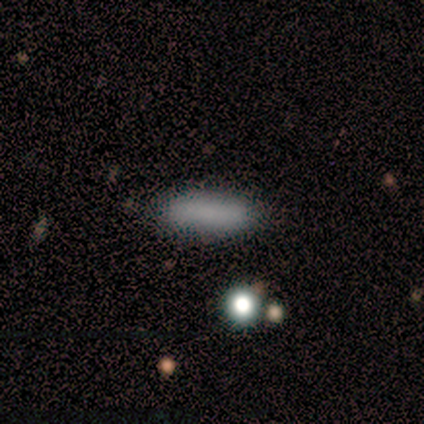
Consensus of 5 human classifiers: Smooth or featured?
  - smooth: 60% *
  - featured or disk: 40%
  - star or artifact: 0%
How rounded?
  - in between: 67% *
  - cigar-shaped: 33%
  - round: 0%
Merging?
  - none: 100% *
  - minor disturbance: 0%
  - major disturbance: 0%
  - merger: 0%